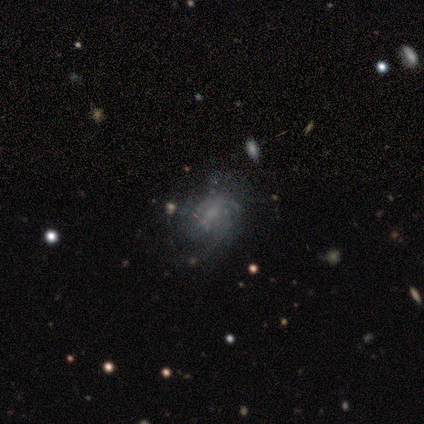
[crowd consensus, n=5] Smooth or featured: featured or disk — 80% (smooth — 20%)
Edge-on disk: no — 100%
Bar: weak — 50% (tied with no — 50%)
Spiral arms: yes — 75% (no — 25%)
Spiral winding: medium — 67% (tight — 33%)
Spiral arm count: 2 — 33% (tied with 4 — 33%; can't tell — 33%)
Bulge size: none — 50% (moderate — 25%)
Merging: none — 60% (minor disturbance — 40%)